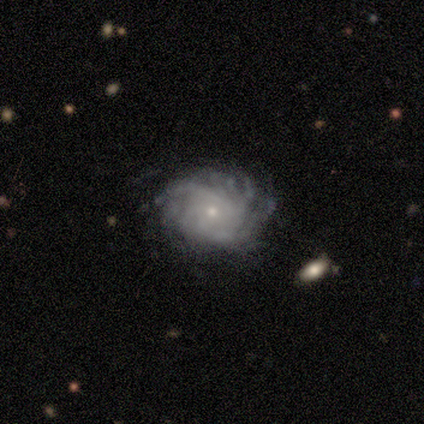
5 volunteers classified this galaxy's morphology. Volunteers were most divided on "spiral winding" (2-way tie): tight: 50%, medium: 50%, loose: 0%; "spiral arm count" (4-way tie): 3: 25%, 4: 25%, more than 4: 25%, can't tell: 25%, 1: 0%, 2: 0%. More confident: smooth or featured — featured or disk (100%); edge-on disk — no (100%); bar — no (80%); spiral arms — yes (80%); bulge size — small (80%); merging — none (80%).